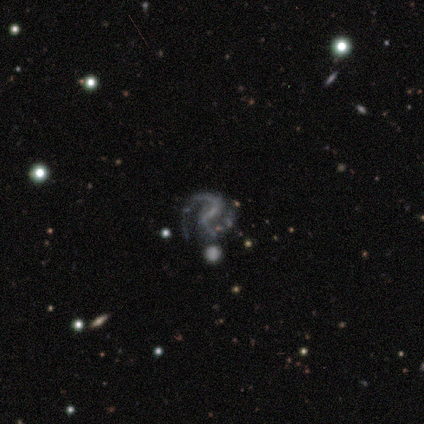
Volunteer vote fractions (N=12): Smooth or featured: featured or disk — 92% (smooth — 8%)
Edge-on disk: no — 100%
Bar: strong — 36% (tied with no — 36%)
Spiral arms: yes — 100%
Spiral winding: medium — 73% (loose — 18%)
Spiral arm count: 2 — 100%
Bulge size: none — 64% (small — 18%)
Merging: none — 83% (minor disturbance — 8%)